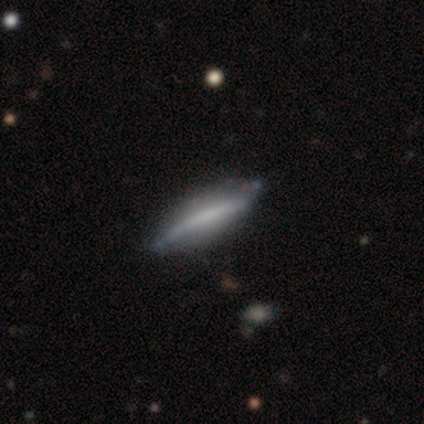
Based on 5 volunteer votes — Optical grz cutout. It shows a featured or disk galaxy (60%) viewed edge-on (100%) with no central bulge (67%). Merging: none (60%).